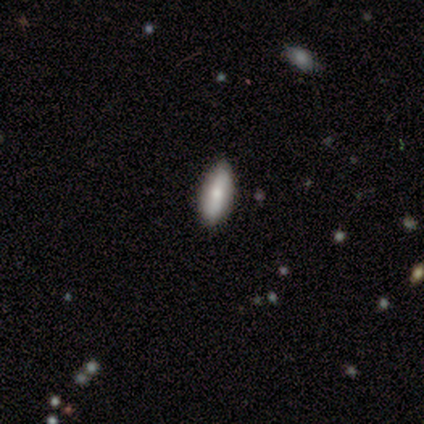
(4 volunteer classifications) Morphology: type=featured or disk (75%); edge-on=no (100%); bar=strong (33%, tied with weak and no); spiral arms=no (67%); bulge=small (67%); merging=none (75%).